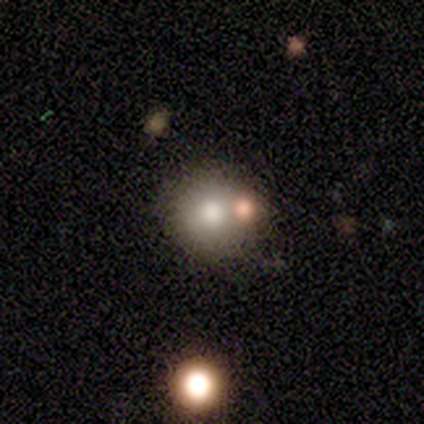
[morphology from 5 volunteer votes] smooth_or_featured: smooth (p=0.80) [alt: featured or disk p=0.20]
how_rounded: round (p=1.00)
merging: none (p=0.80) [alt: minor disturbance p=0.20]